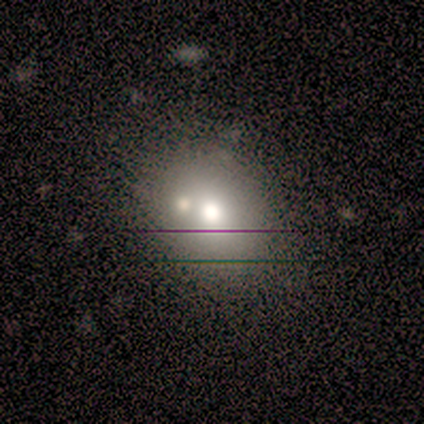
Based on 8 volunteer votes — This appears to be a smooth galaxy with no disk features (75%) that is round (50%, tied with in between). Merging: none (67%).